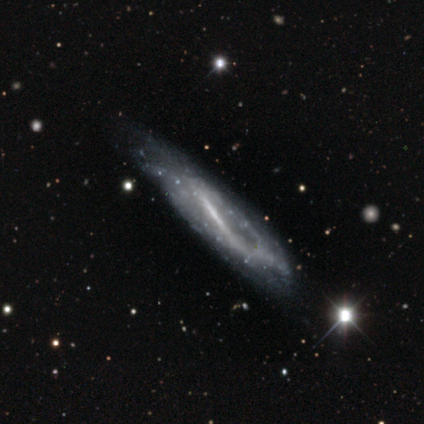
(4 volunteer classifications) This is likely a featured or disk galaxy (75%). It is likely not viewed edge-on (67%). Bar: clearly strong (100%). Spiral arm pattern: clearly yes (100%). Spiral arm count: clearly can't tell (100%). Spiral winding: possibly tight (50%, tied with medium). Central bulge: possibly moderate (50%, tied with small). Merging: possibly minor disturbance (50%).